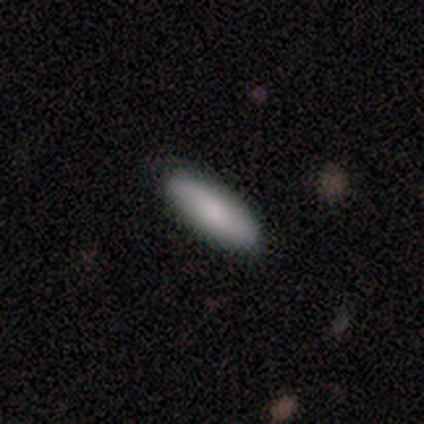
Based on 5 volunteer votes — Morphology: type=smooth (100%); roundness=cigar-shaped (100%); merging=none (80%).